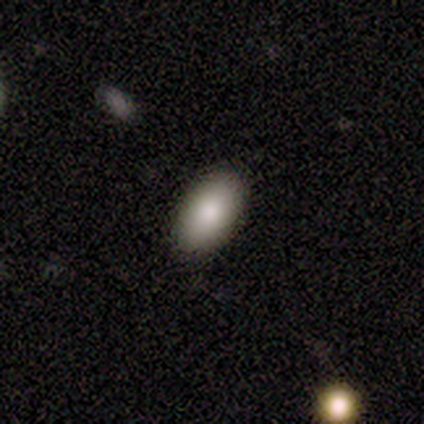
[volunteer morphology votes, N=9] Smooth or featured? smooth (67%)
How rounded? in between (100%)
Merging? none (100%)